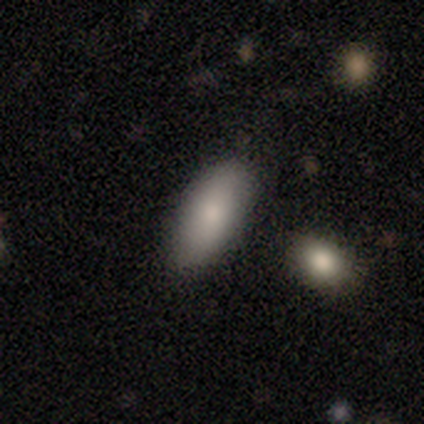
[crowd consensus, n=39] Morphology: type=smooth (79%); roundness=in between (87%); merging=none (83%).